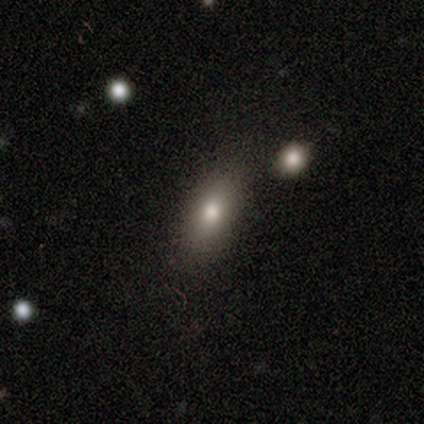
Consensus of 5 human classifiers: Smooth or featured? smooth (80%)
How rounded? in between (50%)
Merging? minor disturbance (75%)